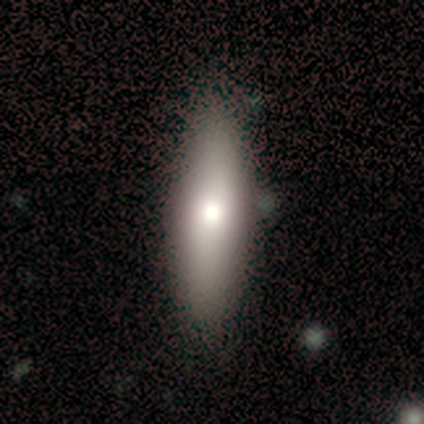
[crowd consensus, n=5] Q: Smooth or featured?
A: smooth (60%); runner-up: featured or disk (40%)
Q: How rounded?
A: cigar-shaped (100%)
Q: Merging?
A: none (80%); runner-up: minor disturbance (20%)